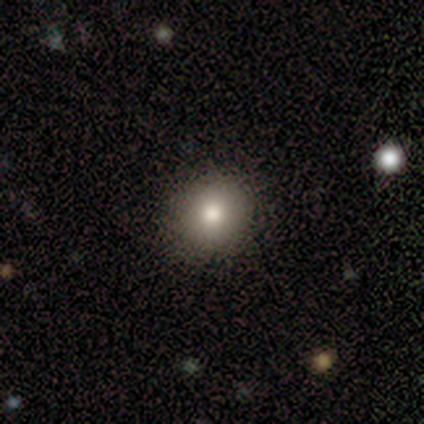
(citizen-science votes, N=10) Volunteers were most divided on "how rounded": round: 71%, in between: 29%, cigar-shaped: 0%. More confident: merging — none (100%); smooth or featured — smooth (70%).